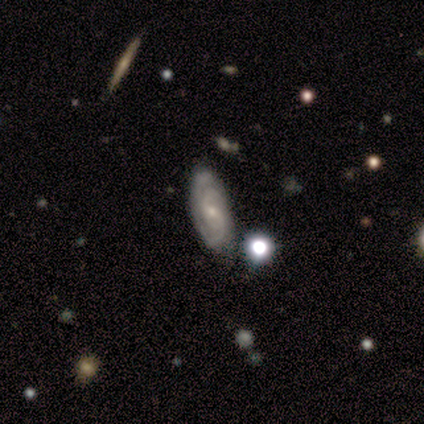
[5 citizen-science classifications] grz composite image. It shows a featured or disk galaxy (100%) with a weak bar (60%), 2 (40%, tied with can't tell) tight (60%) spiral arms (100%) and a small central bulge (60%). Merging: none (80%).